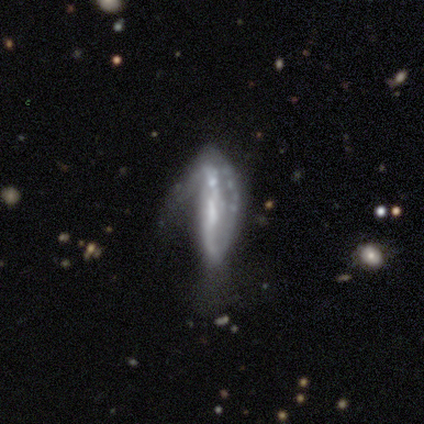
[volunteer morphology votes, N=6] Smooth or featured: smooth — 50% (star or artifact — 33%)
How rounded: cigar-shaped — 100%
Merging: none — 25% (tied with minor disturbance — 25%; major disturbance — 25%; merger — 25%)